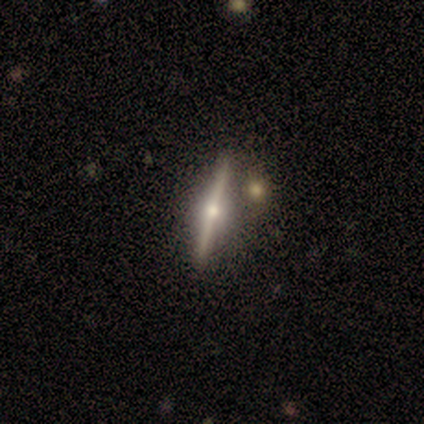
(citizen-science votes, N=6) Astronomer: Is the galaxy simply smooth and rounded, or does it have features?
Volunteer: featured or disk — 83%.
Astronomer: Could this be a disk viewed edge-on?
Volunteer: yes — 100%.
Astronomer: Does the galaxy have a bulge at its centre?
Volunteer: rounded — 100%.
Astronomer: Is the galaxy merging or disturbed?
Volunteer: none — 100%.